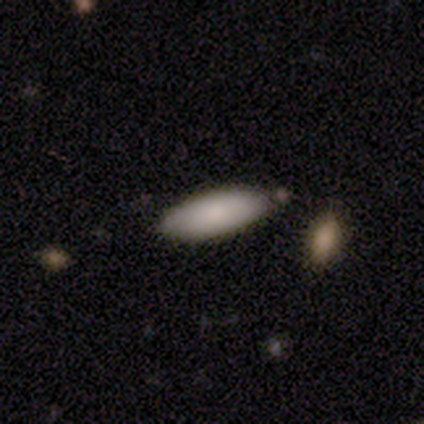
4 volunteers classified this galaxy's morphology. Q: Smooth or featured?
A: smooth (100%)
Q: How rounded?
A: in between (100%)
Q: Merging?
A: none (75%); runner-up: minor disturbance (25%)